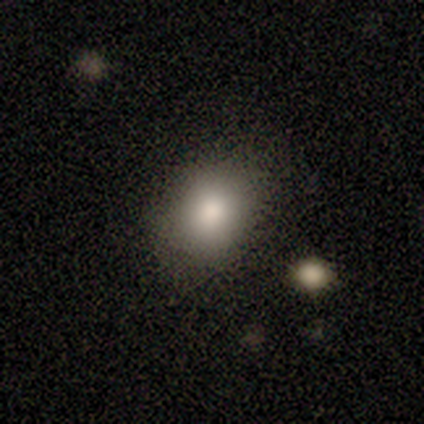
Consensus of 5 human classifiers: Smooth or featured? smooth (80%)
How rounded? round (50%, tied with in between)
Merging? none (60%)